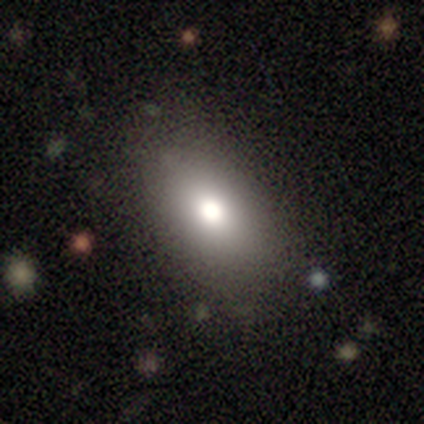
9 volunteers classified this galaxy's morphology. This appears to be a smooth galaxy with no disk features (78%) that is in between round and cigar-shaped (86%). Merging: none (75%).